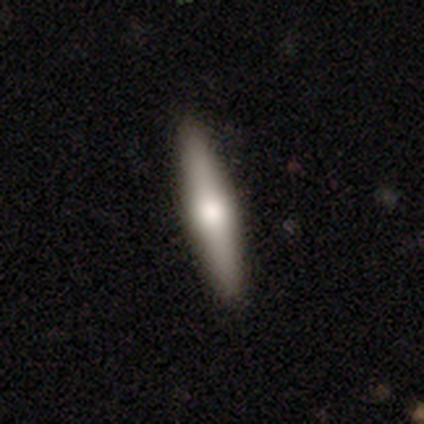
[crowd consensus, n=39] Smooth or featured?
  - featured or disk: 67% *
  - smooth: 28%
  - star or artifact: 5%
Edge-on disk?
  - yes: 96% *
  - no: 4%
Edge-on bulge?
  - rounded: 88% *
  - boxy: 8%
  - none: 4%
Merging?
  - none: 97% *
  - minor disturbance: 3%
  - major disturbance: 0%
  - merger: 0%